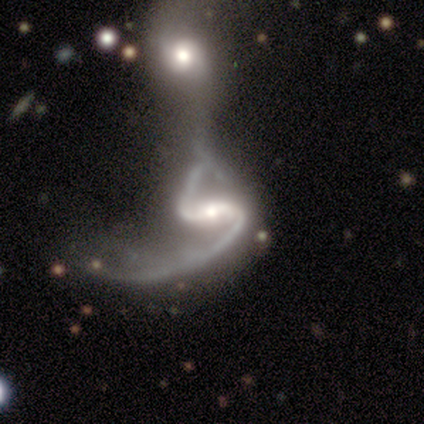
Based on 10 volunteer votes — Morphology: type=featured or disk (100%); edge-on=no (100%); bar=strong (70%); spiral arms=yes (100%); winding=loose (80%); arm count=2 (90%); bulge=moderate (80%); merging=merger (70%).